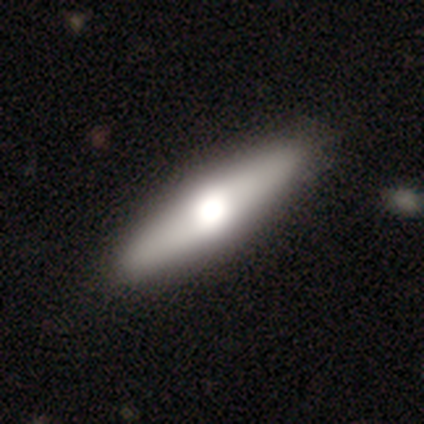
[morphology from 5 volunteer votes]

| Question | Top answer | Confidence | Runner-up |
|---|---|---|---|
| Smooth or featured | featured or disk | 80% | star or artifact (20%) |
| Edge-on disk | yes | 100% | — |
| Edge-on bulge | rounded | 100% | — |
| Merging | none | 100% | — |